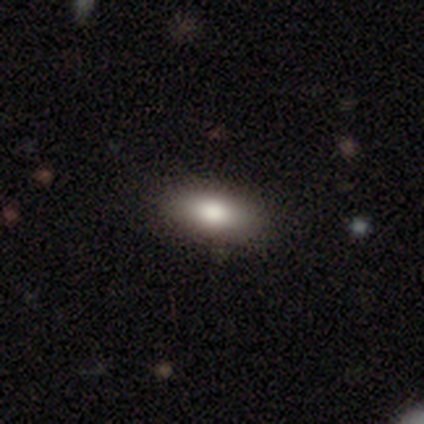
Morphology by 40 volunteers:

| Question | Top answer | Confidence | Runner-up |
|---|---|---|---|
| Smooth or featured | smooth | 82% | featured or disk (15%) |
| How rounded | in between | 79% | cigar-shaped (15%) |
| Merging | none | 85% | minor disturbance (15%) |